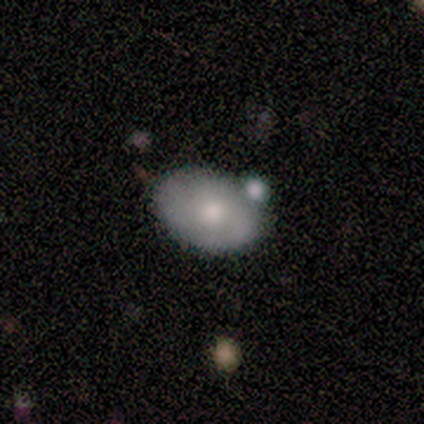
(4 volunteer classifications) This is possibly a smooth galaxy (50%, tied with featured or disk). How rounded: possibly round (50%, tied with in between). Merging: possibly none (50%).